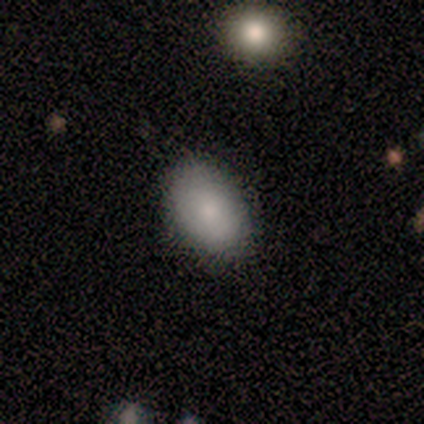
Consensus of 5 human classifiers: Smooth or featured? 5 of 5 (100%) said smooth. How rounded? 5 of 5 (100%) said in between. Merging? 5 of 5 (100%) said none.